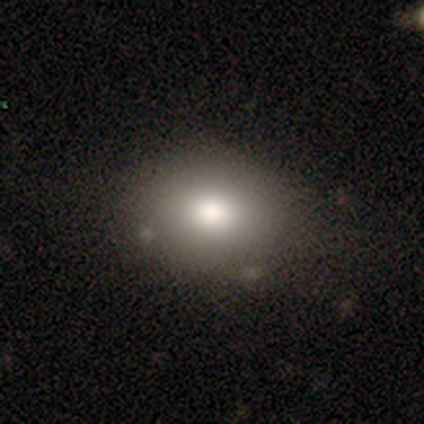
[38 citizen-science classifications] Overall: smooth (68%). How rounded: in between (50%; round 46%). Merging: none (81%).